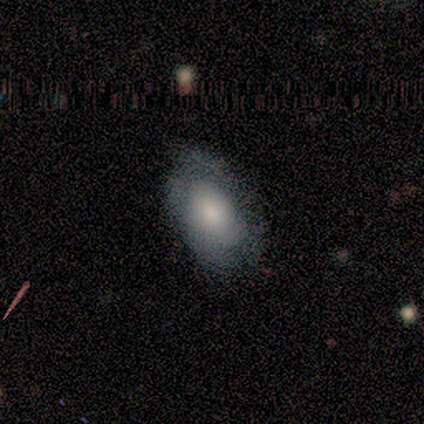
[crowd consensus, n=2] A smooth galaxy with no disk features (50%, tied with featured or disk) that is in between round and cigar-shaped (100%).

Vote fractions:
- Smooth or featured? smooth: 50% (tied) / featured or disk: 50% (tied) / star or artifact: 0%
- How rounded? in between: 100% / round: 0% / cigar-shaped: 0%
- Merging? none: 50% (tied) / minor disturbance: 50% (tied) / major disturbance: 0% / merger: 0%